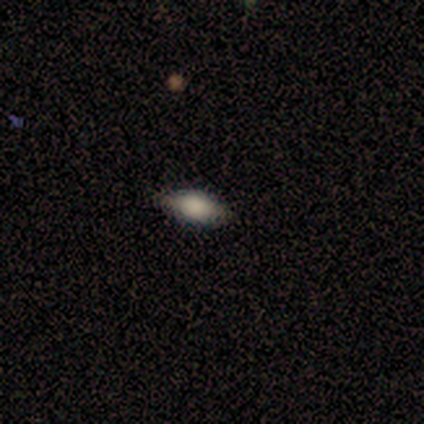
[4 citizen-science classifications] Smooth or featured? 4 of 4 (100%) said smooth. How rounded? 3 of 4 (75%) said in between. Merging? 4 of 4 (100%) said none.